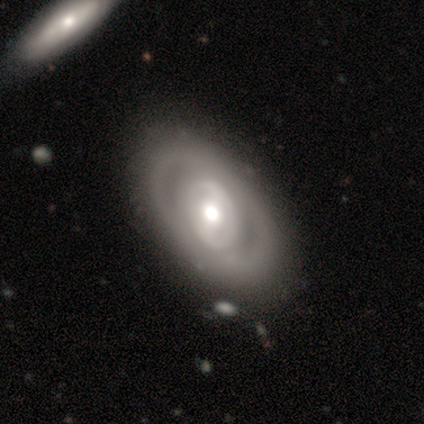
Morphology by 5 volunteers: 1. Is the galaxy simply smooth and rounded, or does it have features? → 80% featured or disk, 20% smooth, 0% star or artifact.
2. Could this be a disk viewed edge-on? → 100% no, 0% yes.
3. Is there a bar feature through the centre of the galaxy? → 75% no, 25% strong, 0% weak.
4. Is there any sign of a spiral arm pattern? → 50% yes (tied), 50% no (tied).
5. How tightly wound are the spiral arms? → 100% tight, 0% medium, 0% loose.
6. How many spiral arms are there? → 50% 2 (tied), 50% can't tell (tied), 0% 1, 0% 3, 0% 4, 0% more than 4.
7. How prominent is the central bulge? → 50% large (tied), 50% moderate (tied), 0% dominant, 0% small, 0% none.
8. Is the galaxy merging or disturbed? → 100% none, 0% minor disturbance, 0% major disturbance, 0% merger.